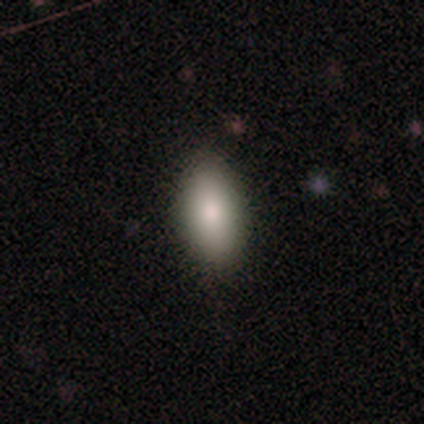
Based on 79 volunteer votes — smooth-or-featured: smooth: 85% | star or artifact: 9% | featured or disk: 6%
  how-rounded: in between: 87% | cigar-shaped: 10% | round: 3%
  merging: none: 44% | minor disturbance: 6% | merger: 6% | major disturbance: 0%